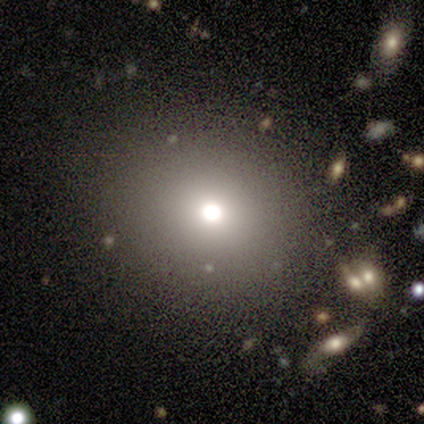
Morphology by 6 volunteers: Overall: smooth (83%). How rounded: round (80%). Merging: none (100%).